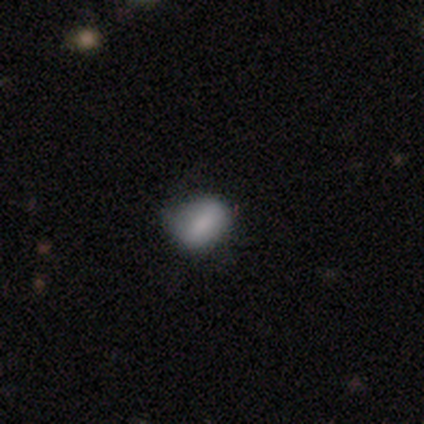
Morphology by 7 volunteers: Overall: smooth (100%). How rounded: in between (57%; round 43%). Merging: none (71%).